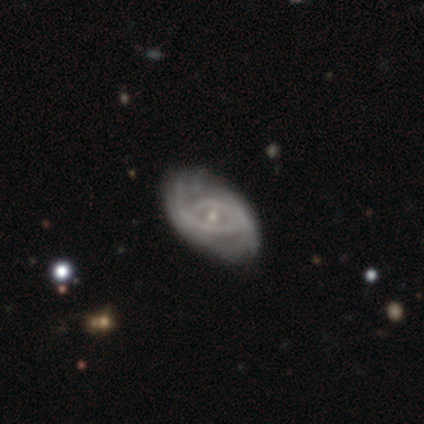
Volunteers were most divided on "bar" (2-way tie): weak: 50%, no: 50%, strong: 0%; "spiral winding" (2-way tie): tight: 50%, medium: 50%, loose: 0%. More confident: smooth or featured — featured or disk (100%); edge-on disk — no (100%); spiral arms — yes (100%); merging — none (100%); spiral arm count — 2 (75%); bulge size — small (75%).